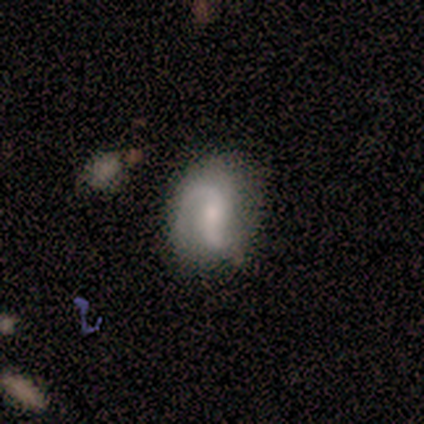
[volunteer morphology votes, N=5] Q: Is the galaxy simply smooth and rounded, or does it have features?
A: featured or disk — 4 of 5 (80%).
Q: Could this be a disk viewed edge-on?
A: no — 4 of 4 (100%).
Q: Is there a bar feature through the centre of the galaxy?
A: weak — 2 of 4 (50%, tied with no).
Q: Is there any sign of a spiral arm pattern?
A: yes — 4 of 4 (100%).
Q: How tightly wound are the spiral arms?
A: medium — 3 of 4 (75%).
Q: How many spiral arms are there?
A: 2 — 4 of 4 (100%).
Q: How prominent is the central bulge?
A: moderate — 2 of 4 (50%).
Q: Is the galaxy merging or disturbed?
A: none — 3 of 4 (75%).